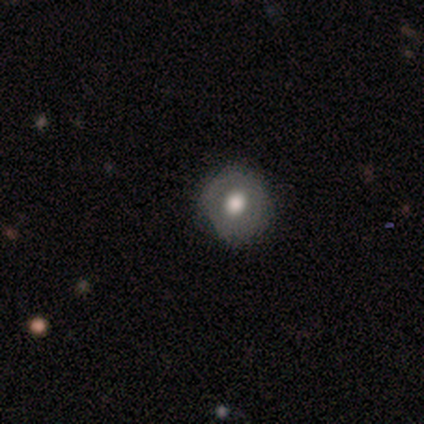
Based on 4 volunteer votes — Q: Smooth or featured?
A: smooth (75%); runner-up: featured or disk (25%)
Q: How rounded?
A: round (100%)
Q: Merging?
A: none (75%); runner-up: minor disturbance (25%)